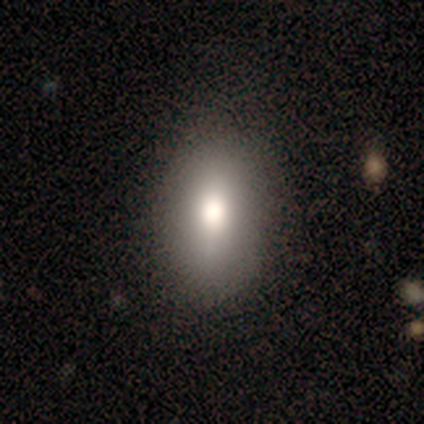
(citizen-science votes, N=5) Smooth or featured? 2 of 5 (40%, tied with featured or disk) said smooth. How rounded? 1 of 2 (50%, tied with in between) said round. Merging? 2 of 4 (50%) said none.